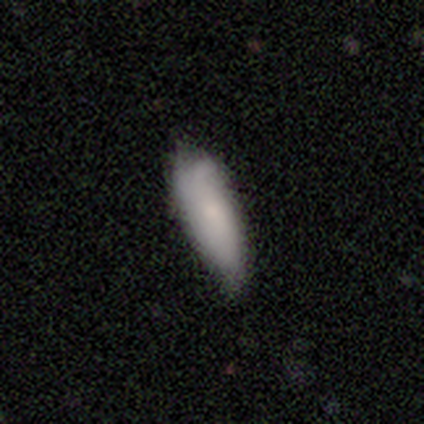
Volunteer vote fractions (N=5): smooth-or-featured: smooth: 80% | featured or disk: 20% | star or artifact: 0%
  how-rounded: in between: 50% (tied) | cigar-shaped: 50% (tied) | round: 0%
  merging: none: 60% | minor disturbance: 40% | major disturbance: 0% | merger: 0%